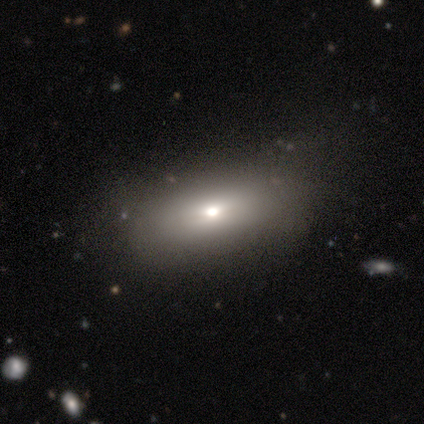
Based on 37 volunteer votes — This is clearly a smooth galaxy (86%). How rounded: clearly in between (84%). Merging: likely none (76%).